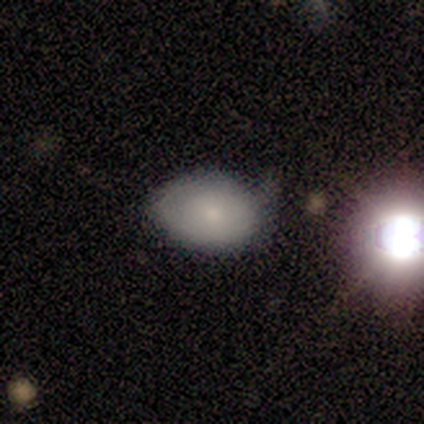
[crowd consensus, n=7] Smooth or featured? 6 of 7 (86%) said smooth. How rounded? 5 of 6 (83%) said in between. Merging? 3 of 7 (43%, tied with minor disturbance) said none.